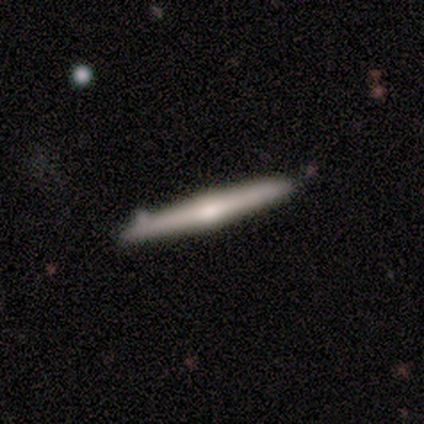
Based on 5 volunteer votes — Volunteers were most divided on "smooth or featured": smooth: 60%, featured or disk: 20%, star or artifact: 20%. More confident: how rounded — cigar-shaped (100%); merging — none (100%).